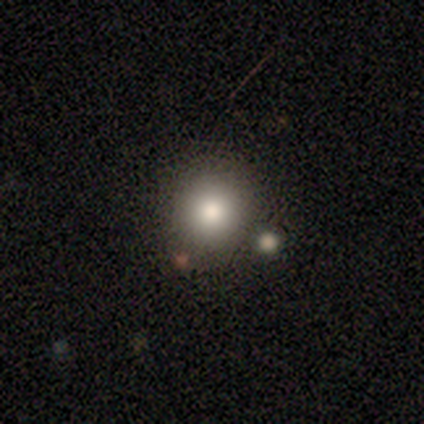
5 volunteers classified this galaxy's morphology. Smooth or featured? 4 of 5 (80%) said smooth. How rounded? 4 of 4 (100%) said round. Merging? 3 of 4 (75%) said none.